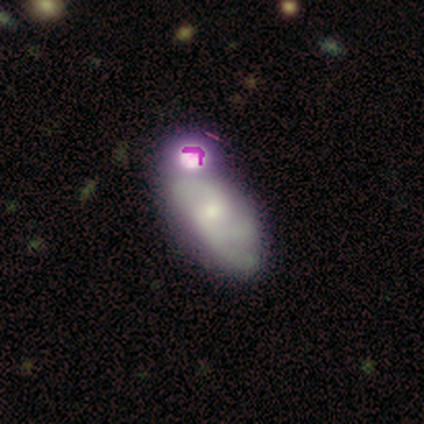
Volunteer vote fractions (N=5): Smooth or featured? 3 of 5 (60%) said featured or disk. Edge-on disk? 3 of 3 (100%) said no. Bar? 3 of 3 (100%) said no. Spiral arms? 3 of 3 (100%) said yes. Spiral winding? 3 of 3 (100%) said medium. Spiral arm count? 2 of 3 (67%) said can't tell. Bulge size? 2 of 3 (67%) said small. Merging? 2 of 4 (50%, tied with merger) said none.